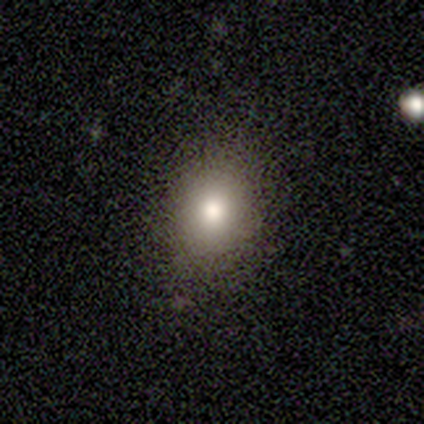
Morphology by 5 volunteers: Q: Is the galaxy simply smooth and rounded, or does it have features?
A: smooth — 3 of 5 (60%).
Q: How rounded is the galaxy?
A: round — 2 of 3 (67%).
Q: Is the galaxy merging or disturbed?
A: none — 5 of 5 (100%).